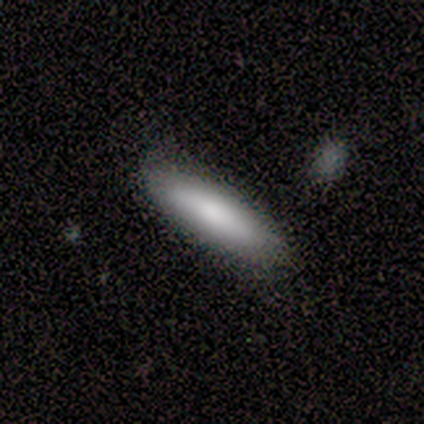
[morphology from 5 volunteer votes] Smooth or featured?
  - smooth: 80% *
  - featured or disk: 20%
  - star or artifact: 0%
How rounded?
  - in between: 50% * (tied)
  - cigar-shaped: 50% * (tied)
  - round: 0%
Merging?
  - none: 80% *
  - minor disturbance: 20%
  - major disturbance: 0%
  - merger: 0%